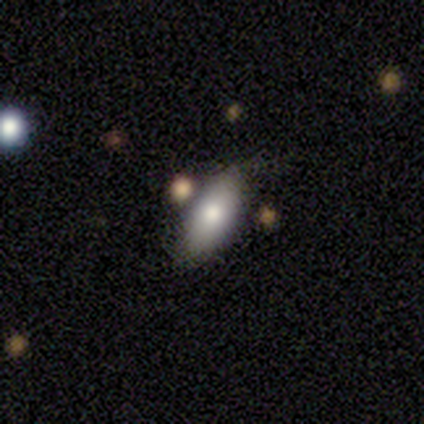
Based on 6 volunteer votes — Smooth or featured: smooth — 100%
How rounded: in between — 100%
Merging: none — 100%